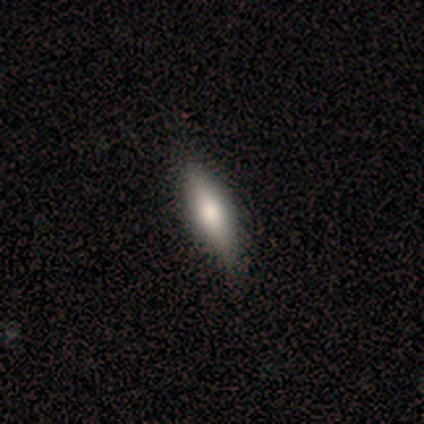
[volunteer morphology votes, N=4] Smooth or featured? star or artifact (50%)